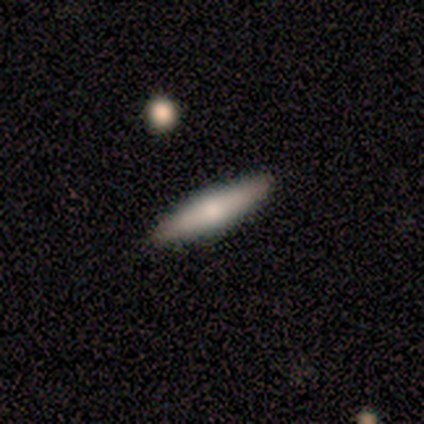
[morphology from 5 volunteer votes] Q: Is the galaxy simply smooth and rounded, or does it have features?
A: featured or disk — 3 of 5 (60%).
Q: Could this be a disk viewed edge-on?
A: yes — 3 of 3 (100%).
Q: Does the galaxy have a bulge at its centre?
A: rounded — 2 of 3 (67%).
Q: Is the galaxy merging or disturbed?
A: none — 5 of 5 (100%).